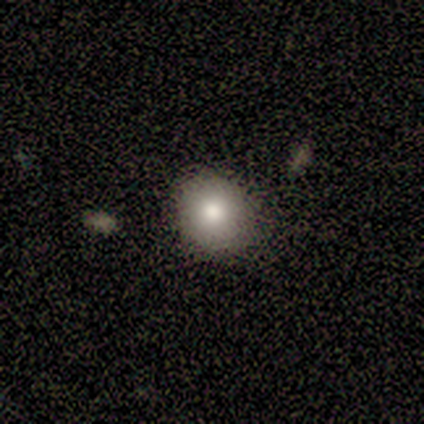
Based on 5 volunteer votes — Q: Smooth or featured?
A: smooth (60%); runner-up: featured or disk (40%)
Q: How rounded?
A: round (100%)
Q: Merging?
A: none (100%)